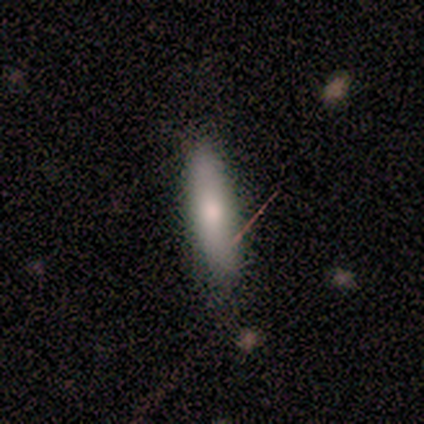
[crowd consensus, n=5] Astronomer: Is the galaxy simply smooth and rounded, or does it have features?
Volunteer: smooth — 100%.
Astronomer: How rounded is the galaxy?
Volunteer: cigar-shaped — 80%.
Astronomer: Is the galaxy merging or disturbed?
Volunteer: none — 60%.